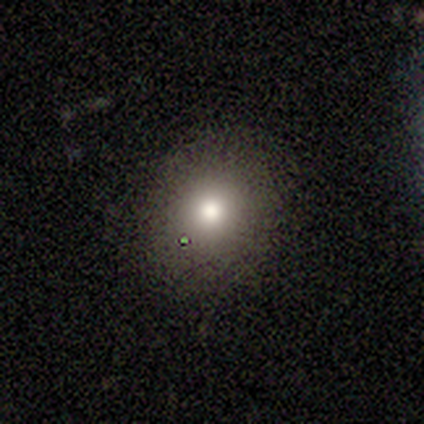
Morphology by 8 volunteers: smooth 75%, featured or disk 12%, star or artifact 12%. Down the decision tree: how rounded — round (67%); merging — none (71%).